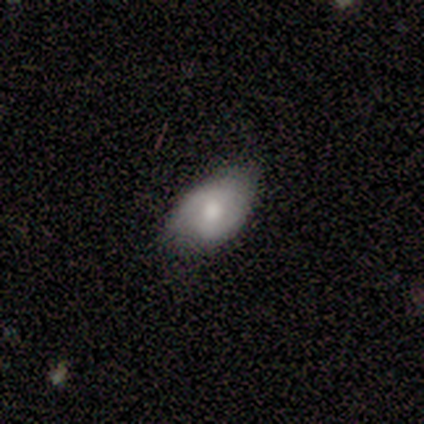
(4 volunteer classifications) Smooth or featured? featured or disk (75%)
Edge-on disk? no (100%)
Bar? weak (67%)
Spiral arms? yes (67%)
Spiral winding? medium (50%, tied with loose)
Spiral arm count? 2 (100%)
Bulge size? moderate (67%)
Merging? none (100%)